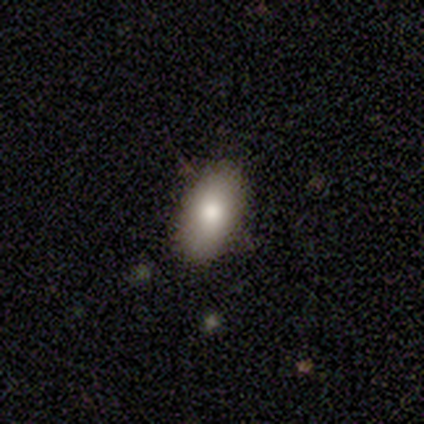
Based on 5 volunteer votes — Smooth or featured: smooth — 100%
How rounded: in between — 100%
Merging: none — 100%